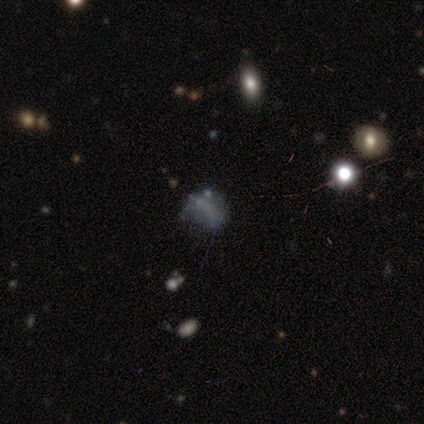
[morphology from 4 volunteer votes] Smooth or featured?
  - smooth: 50% * (tied)
  - star or artifact: 50% * (tied)
  - featured or disk: 0%
How rounded?
  - round: 50% * (tied)
  - in between: 50% * (tied)
  - cigar-shaped: 0%
Merging?
  - none: 50% * (tied)
  - minor disturbance: 50% * (tied)
  - major disturbance: 0%
  - merger: 0%